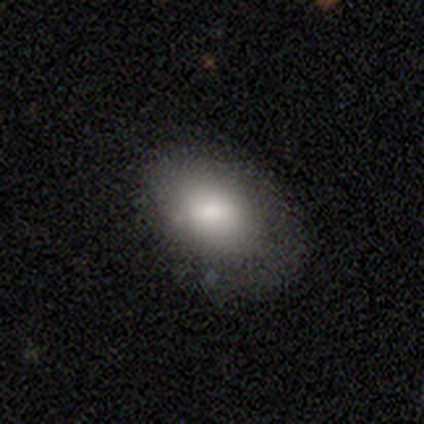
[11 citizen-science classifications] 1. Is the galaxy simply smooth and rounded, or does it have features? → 91% smooth, 9% star or artifact, 0% featured or disk.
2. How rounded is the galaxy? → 80% in between, 20% round, 0% cigar-shaped.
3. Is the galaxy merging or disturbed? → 50% none, 40% minor disturbance, 10% major disturbance, 0% merger.